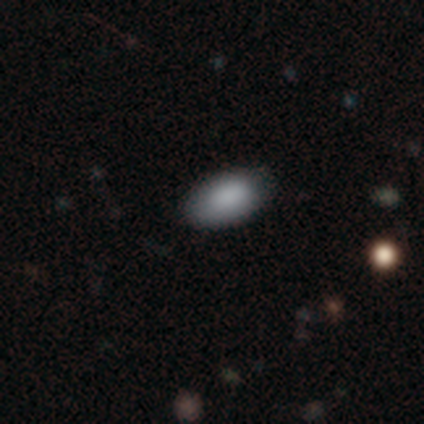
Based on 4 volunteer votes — Smooth or featured? 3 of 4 (75%) said smooth. How rounded? 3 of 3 (100%) said in between. Merging? 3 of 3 (100%) said none.